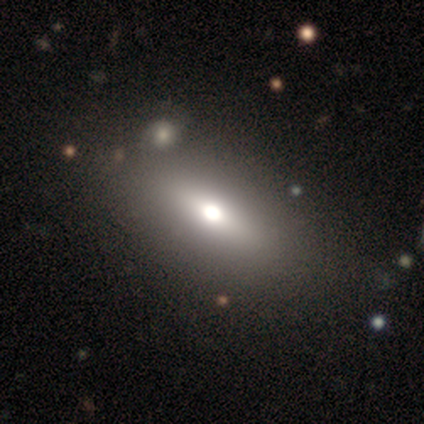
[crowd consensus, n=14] Smooth or featured? smooth (71%)
How rounded? in between (60%)
Merging? none (85%)